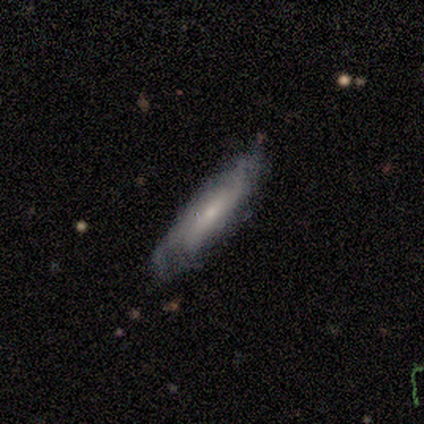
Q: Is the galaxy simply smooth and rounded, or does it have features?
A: smooth — 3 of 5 (60%).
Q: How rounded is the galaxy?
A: cigar-shaped — 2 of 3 (67%).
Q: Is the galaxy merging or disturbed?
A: minor disturbance — 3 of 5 (60%).